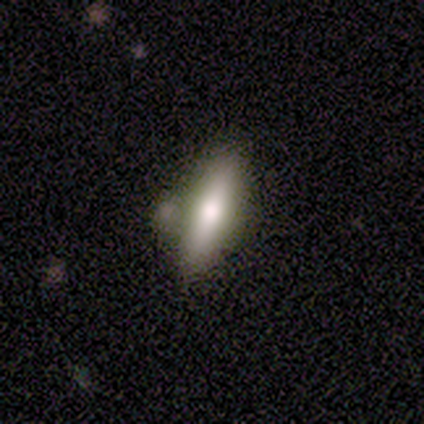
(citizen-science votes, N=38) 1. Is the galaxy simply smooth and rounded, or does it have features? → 74% smooth, 26% featured or disk, 0% star or artifact.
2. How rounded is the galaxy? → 57% cigar-shaped, 39% in between, 4% round.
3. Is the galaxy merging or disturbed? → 63% none, 24% minor disturbance, 13% merger, 0% major disturbance.